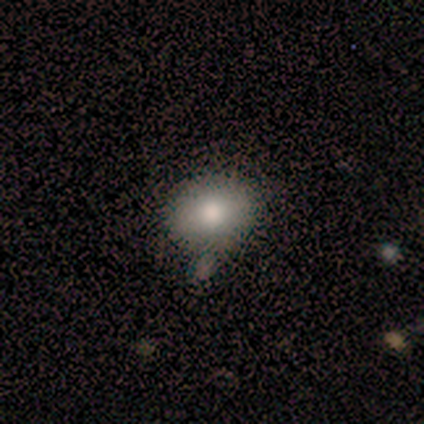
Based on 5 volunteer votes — Smooth or featured? 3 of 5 (60%) said smooth. How rounded? 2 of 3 (67%) said round. Merging? 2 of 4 (50%, tied with minor disturbance) said none.